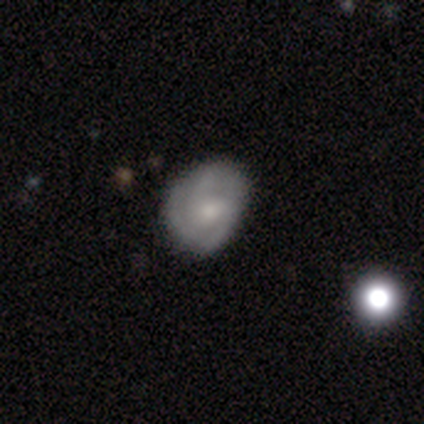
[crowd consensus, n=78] A featured or disk galaxy (51%) with no bar (60%), 3 (50%) tight (50%) spiral arms (90%) and a small central bulge (45%). Merging: none (51%).